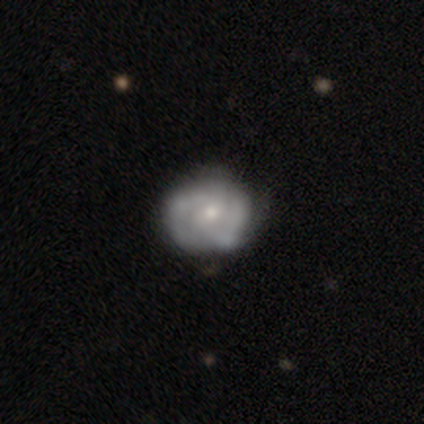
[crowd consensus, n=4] Smooth or featured? 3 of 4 (75%) said featured or disk. Edge-on disk? 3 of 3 (100%) said no. Bar? 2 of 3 (67%) said no. Spiral arms? 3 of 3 (100%) said yes. Spiral winding? 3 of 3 (100%) said tight. Spiral arm count? 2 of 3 (67%) said can't tell. Bulge size? 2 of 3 (67%) said small. Merging? 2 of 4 (50%, tied with minor disturbance) said none.